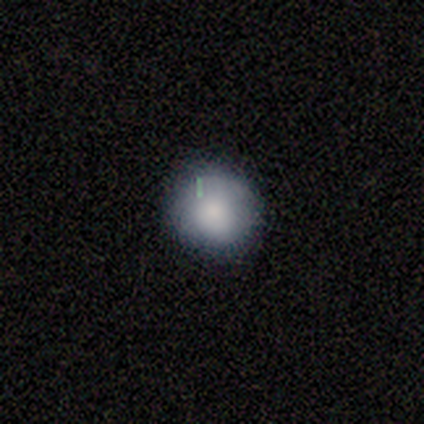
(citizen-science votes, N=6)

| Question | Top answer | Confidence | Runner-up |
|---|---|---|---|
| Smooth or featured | smooth | 100% | — |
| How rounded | round | 100% | — |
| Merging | none | 83% | minor disturbance (17%) |